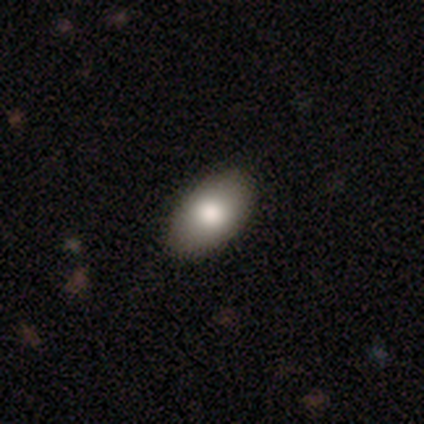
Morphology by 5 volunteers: Smooth or featured: smooth — 100%
How rounded: in between — 100%
Merging: none — 80% (minor disturbance — 20%)